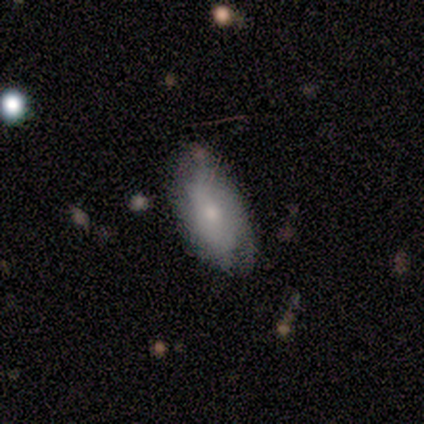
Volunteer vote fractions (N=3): smooth_or_featured: smooth (p=0.67) [alt: featured or disk p=0.33]
how_rounded: in between (p=1.00)
merging: none (p=0.67) [alt: minor disturbance p=0.33]